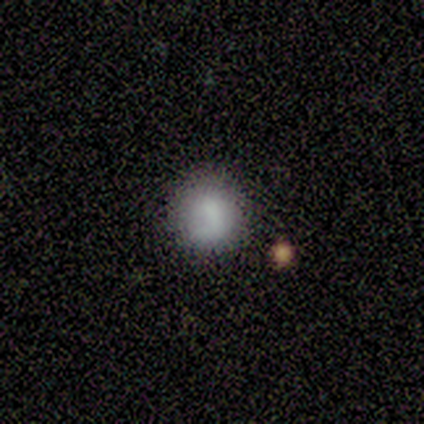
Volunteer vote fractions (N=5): A smooth galaxy with no disk features (80%) that is round (100%).

Vote fractions:
- Smooth or featured? smooth: 80% / featured or disk: 20% / star or artifact: 0%
- How rounded? round: 100% / in between: 0% / cigar-shaped: 0%
- Merging? none: 80% / minor disturbance: 20% / major disturbance: 0% / merger: 0%